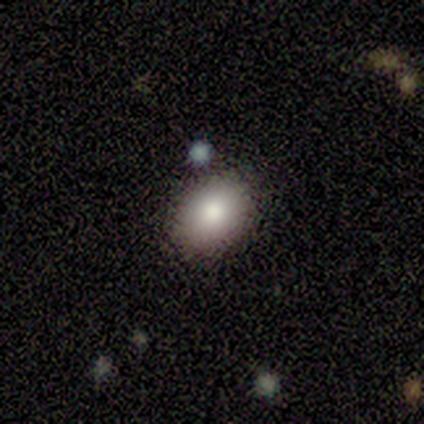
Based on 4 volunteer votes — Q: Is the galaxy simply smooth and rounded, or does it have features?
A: smooth — 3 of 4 (75%).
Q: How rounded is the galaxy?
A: in between — 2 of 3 (67%).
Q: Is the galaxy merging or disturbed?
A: none — 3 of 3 (100%).